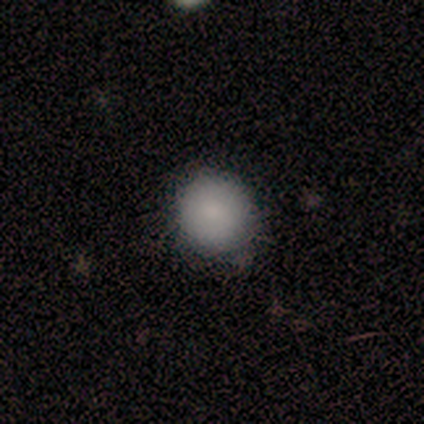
Q: Smooth or featured?
A: smooth (60%); runner-up: featured or disk (20%)
Q: How rounded?
A: round (100%)
Q: Merging?
A: none (75%); runner-up: minor disturbance (25%)